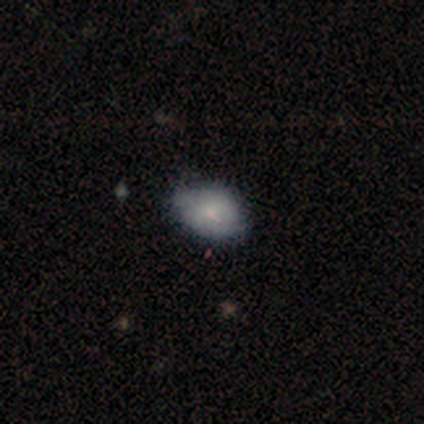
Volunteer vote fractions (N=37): smooth 68%, featured or disk 24%, star or artifact 8%. Down the decision tree: how rounded — in between (88%); merging — none (62%).